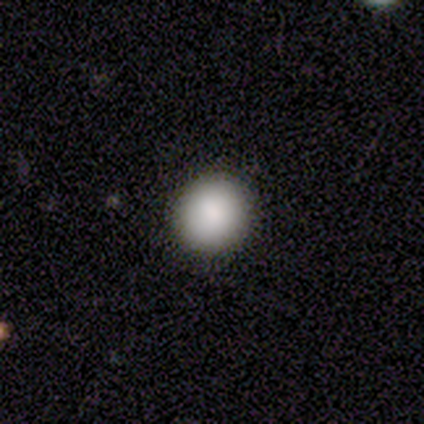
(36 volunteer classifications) smooth_or_featured: smooth (p=0.86) [alt: featured or disk p=0.11]
how_rounded: round (p=0.74) [alt: in between p=0.26]
merging: none (p=0.89) [alt: major disturbance p=0.06]